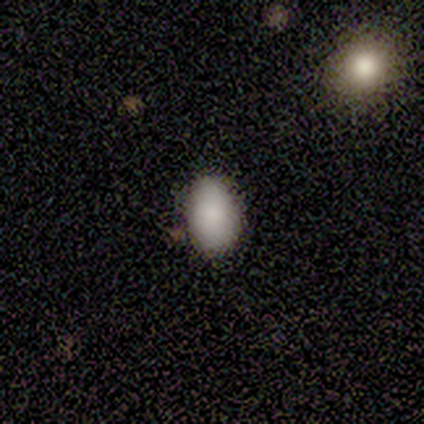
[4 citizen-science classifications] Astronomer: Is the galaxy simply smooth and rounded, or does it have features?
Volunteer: smooth — 100%.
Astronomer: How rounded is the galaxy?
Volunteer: in between — 100%.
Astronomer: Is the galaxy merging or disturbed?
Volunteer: none — 100%.